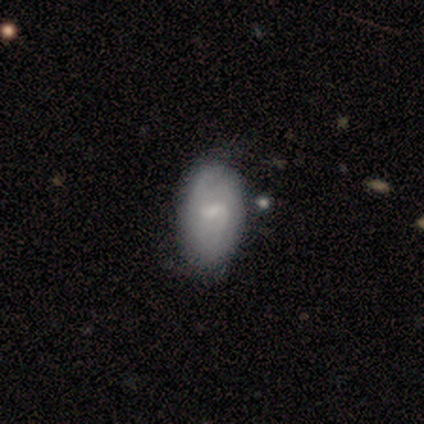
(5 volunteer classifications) A featured or disk galaxy (60%) with a weak bar (100%), 1 (50%, tied with can't tell) tight (50%, tied with medium) spiral arms (67%) and a small central bulge (67%). Merging: none (100%).